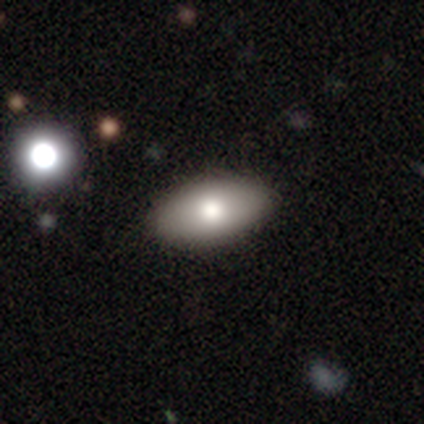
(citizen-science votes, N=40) smooth 78%, featured or disk 18%, star or artifact 5%. Down the decision tree: how rounded — in between (94%); merging — none (92%).